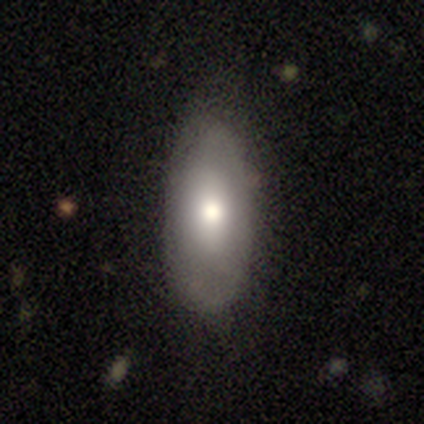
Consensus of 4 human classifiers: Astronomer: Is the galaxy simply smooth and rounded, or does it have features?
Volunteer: smooth — 50%.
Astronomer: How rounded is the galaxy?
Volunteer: in between — 100%.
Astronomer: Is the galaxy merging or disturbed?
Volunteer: none — 67%.